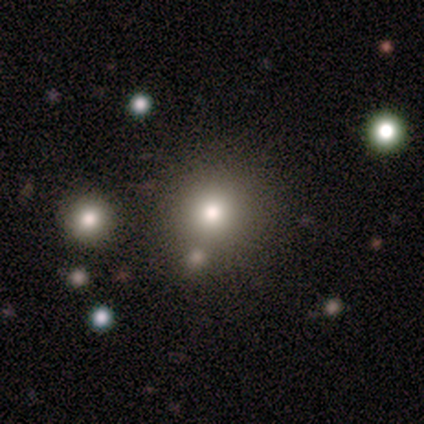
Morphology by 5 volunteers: Smooth or featured?
  - smooth: 60% *
  - featured or disk: 20%
  - star or artifact: 20%
How rounded?
  - round: 100% *
  - in between: 0%
  - cigar-shaped: 0%
Merging?
  - none: 100% *
  - minor disturbance: 0%
  - major disturbance: 0%
  - merger: 0%